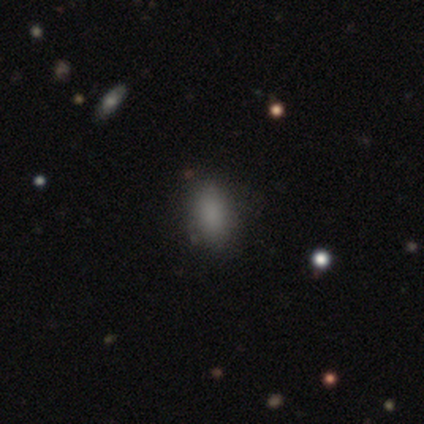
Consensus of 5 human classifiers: This is clearly a smooth galaxy (100%). How rounded: clearly in between (80%). Merging: clearly none (100%).